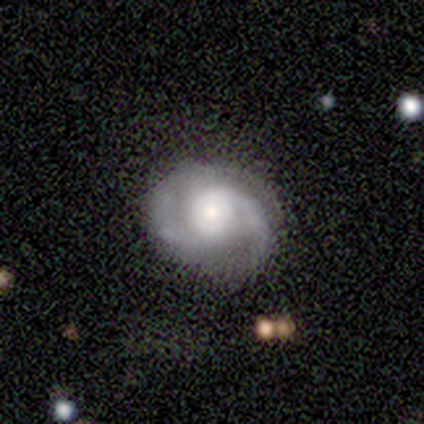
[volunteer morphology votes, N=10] featured or disk 90%, smooth 10%, star or artifact 0%. Down the decision tree: edge-on disk — no (100%); bar — no (67%); spiral arms — yes (100%); spiral arm count — 2 (67%); spiral winding — tight (33%, tied with medium and loose); bulge size — small (56%); merging — none (90%).